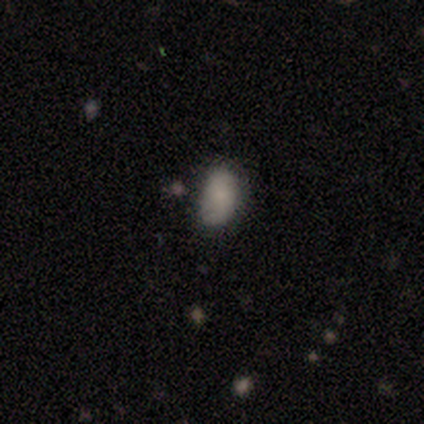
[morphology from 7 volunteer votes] Volunteers were most divided on "merging": none: 67%, minor disturbance: 33%, major disturbance: 0%, merger: 0%. More confident: how rounded — in between (80%); smooth or featured — smooth (71%).